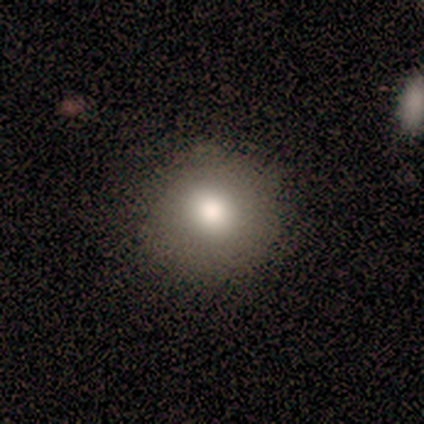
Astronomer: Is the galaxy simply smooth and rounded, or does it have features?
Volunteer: smooth — 100%.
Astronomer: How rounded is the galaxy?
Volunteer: round — 93%.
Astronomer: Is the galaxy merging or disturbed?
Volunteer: none — 79%.